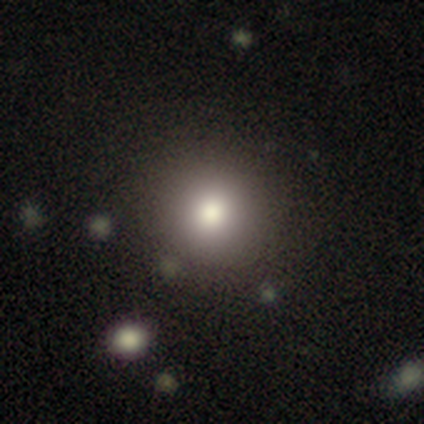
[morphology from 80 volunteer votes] smooth 71%, star or artifact 18%, featured or disk 11%. Down the decision tree: how rounded — round (93%); merging — none (85%).